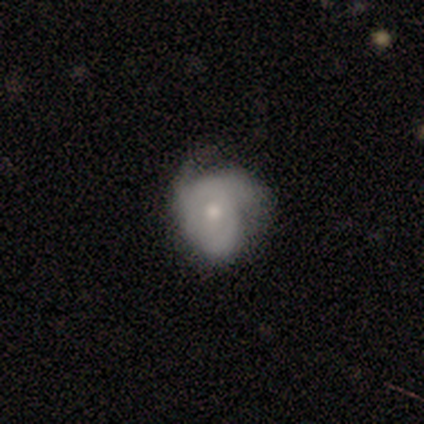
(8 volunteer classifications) Smooth or featured? 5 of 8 (62%) said featured or disk. Edge-on disk? 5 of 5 (100%) said no. Bar? 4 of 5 (80%) said no. Spiral arms? 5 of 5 (100%) said yes. Spiral winding? 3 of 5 (60%) said medium. Spiral arm count? 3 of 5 (60%) said 2. Bulge size? 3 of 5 (60%) said moderate. Merging? 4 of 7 (57%) said none.